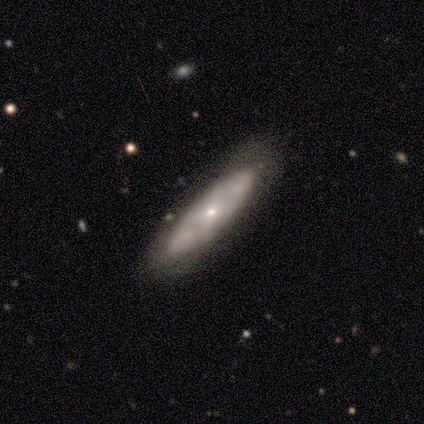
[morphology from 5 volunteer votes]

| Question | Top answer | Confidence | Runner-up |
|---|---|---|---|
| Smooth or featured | featured or disk | 60% | smooth (40%) |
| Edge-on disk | no | 100% | — |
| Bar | no | 100% | — |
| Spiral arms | no | 67% | yes (33%) |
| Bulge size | small | 100% | — |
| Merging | none | 80% | merger (20%) |